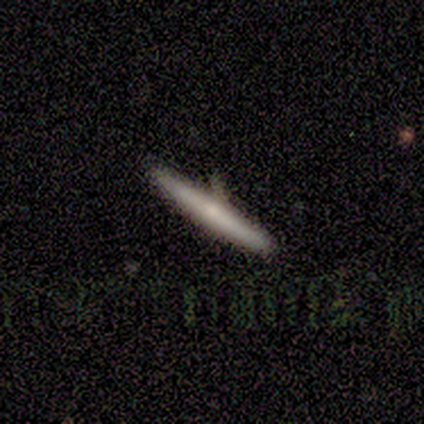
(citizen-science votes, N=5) Q: Smooth or featured?
A: smooth (60%); runner-up: featured or disk (40%)
Q: How rounded?
A: cigar-shaped (100%)
Q: Merging?
A: none (80%); runner-up: minor disturbance (20%)